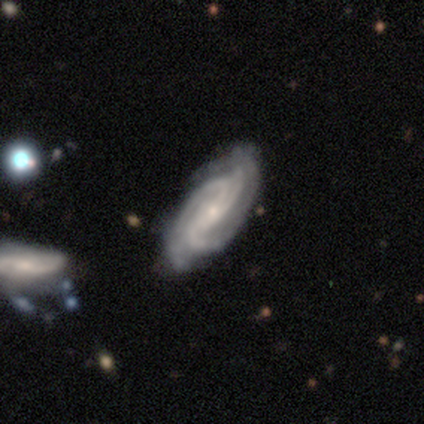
Q: Smooth or featured?
A: featured or disk (80%); runner-up: smooth (20%)
Q: Edge-on disk?
A: no (100%)
Q: Bar?
A: no (50%); runner-up: strong (25%)
Q: Spiral arms?
A: yes (100%)
Q: Spiral winding?
A: tight (50%); tied with: medium (50%)
Q: Spiral arm count?
A: 3 (50%); runner-up: 2 (25%)
Q: Bulge size?
A: small (75%); runner-up: moderate (25%)
Q: Merging?
A: none (60%); runner-up: minor disturbance (40%)